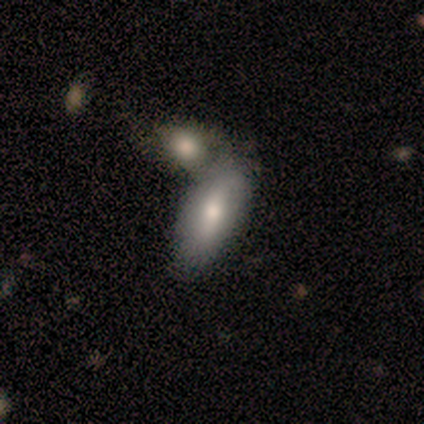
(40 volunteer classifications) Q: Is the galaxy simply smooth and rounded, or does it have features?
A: smooth — 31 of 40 (78%).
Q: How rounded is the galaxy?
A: in between — 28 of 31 (90%).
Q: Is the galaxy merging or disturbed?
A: merger — 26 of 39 (67%).